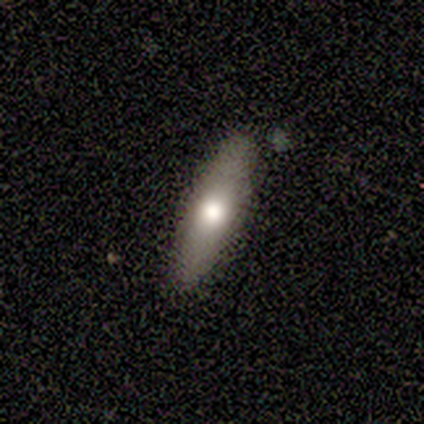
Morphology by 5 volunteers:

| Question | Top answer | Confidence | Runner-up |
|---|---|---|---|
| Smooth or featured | smooth | 80% | featured or disk (20%) |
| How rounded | in between | 75% | cigar-shaped (25%) |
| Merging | none | 100% | — |